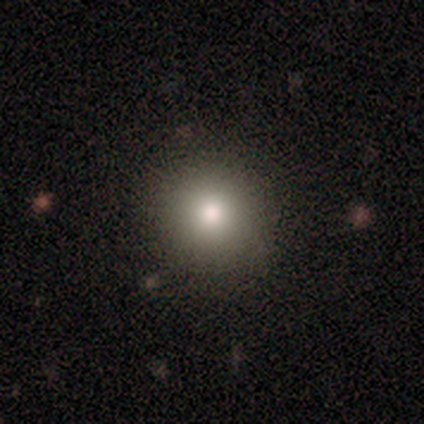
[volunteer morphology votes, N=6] smooth-or-featured: smooth: 83% | featured or disk: 17% | star or artifact: 0%
  how-rounded: round: 100% | in between: 0% | cigar-shaped: 0%
  merging: none: 100% | minor disturbance: 0% | major disturbance: 0% | merger: 0%